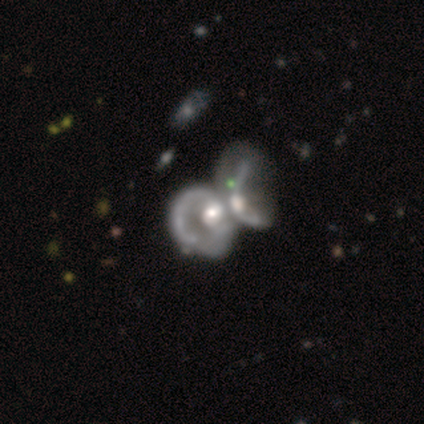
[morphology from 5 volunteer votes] Q: Smooth or featured?
A: featured or disk (100%)
Q: Edge-on disk?
A: no (100%)
Q: Bar?
A: no (80%); runner-up: weak (20%)
Q: Spiral arms?
A: yes (60%); runner-up: no (40%)
Q: Spiral winding?
A: medium (100%)
Q: Spiral arm count?
A: can't tell (67%); runner-up: 2 (33%)
Q: Bulge size?
A: moderate (60%); runner-up: dominant (20%)
Q: Merging?
A: merger (60%); runner-up: major disturbance (40%)